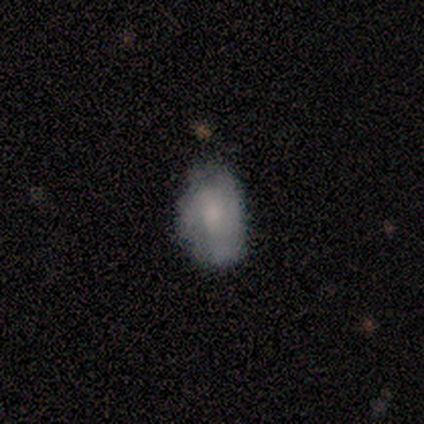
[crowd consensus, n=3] featured or disk 67%, smooth 33%, star or artifact 0%. Down the decision tree: edge-on disk — yes (50%, tied with no); edge-on bulge — rounded (100%); merging — minor disturbance (67%).